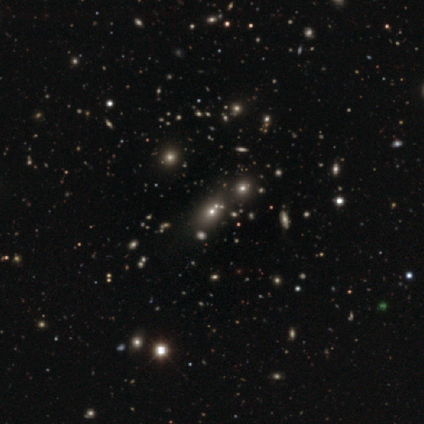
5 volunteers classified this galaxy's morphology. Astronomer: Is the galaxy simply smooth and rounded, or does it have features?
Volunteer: star or artifact — 80%.